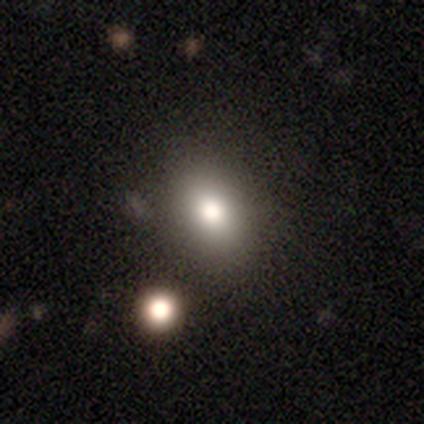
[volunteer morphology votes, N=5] smooth 60%, featured or disk 20%, star or artifact 20%. Down the decision tree: how rounded — in between (67%); merging — none (100%).